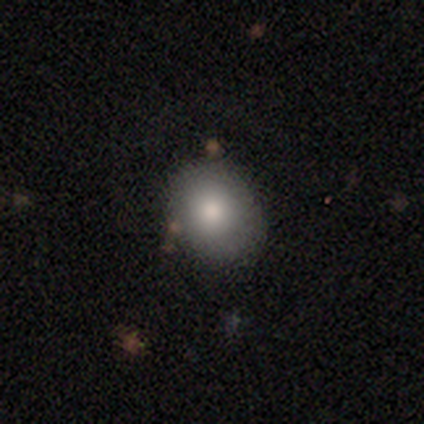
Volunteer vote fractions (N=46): Smooth or featured? 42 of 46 (91%) said smooth. How rounded? 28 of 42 (67%) said round. Merging? 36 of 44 (82%) said none.